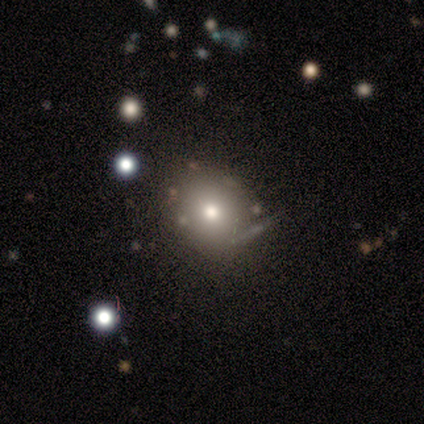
Q: Smooth or featured?
A: smooth (50%); runner-up: star or artifact (33%)
Q: How rounded?
A: round (83%); runner-up: in between (17%)
Q: Merging?
A: none (62%); runner-up: minor disturbance (25%)